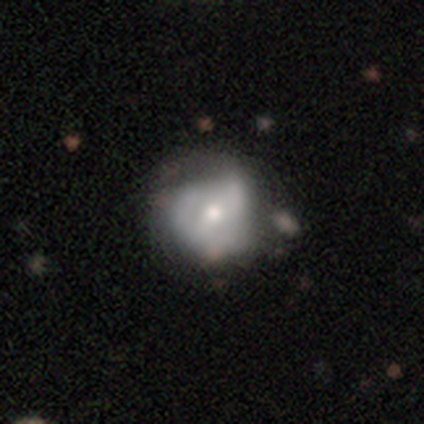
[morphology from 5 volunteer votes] smooth_or_featured: smooth (p=0.60) [alt: featured or disk p=0.40]
how_rounded: round (p=1.00)
merging: minor disturbance (p=0.40) [tied with: major disturbance p=0.40]